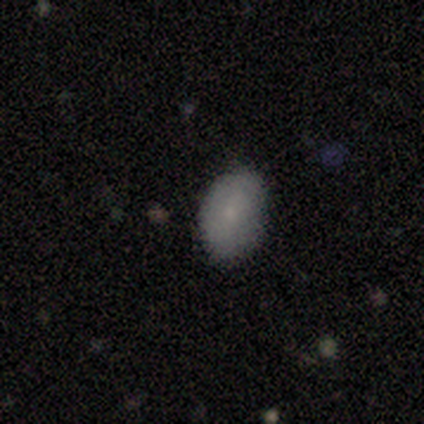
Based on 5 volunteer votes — Smooth or featured: smooth — 100%
How rounded: in between — 80% (round — 20%)
Merging: none — 100%